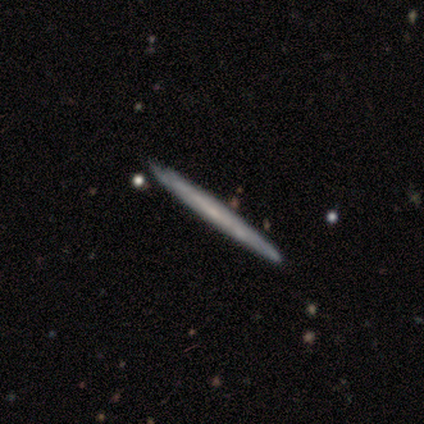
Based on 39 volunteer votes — Smooth or featured? featured or disk (62%)
Edge-on disk? yes (88%)
Edge-on bulge? none (71%)
Merging? none (51%)